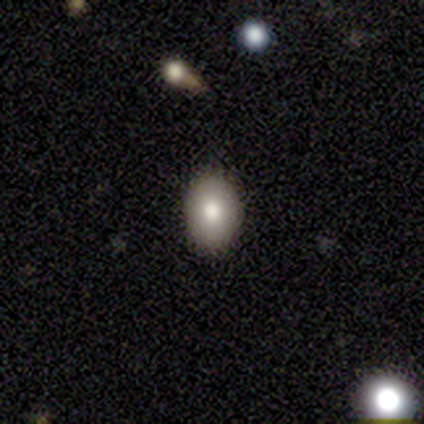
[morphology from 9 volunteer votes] This appears to be a smooth galaxy with no disk features (44%, tied with featured or disk) that is in between round and cigar-shaped (75%). Merging: none (100%).